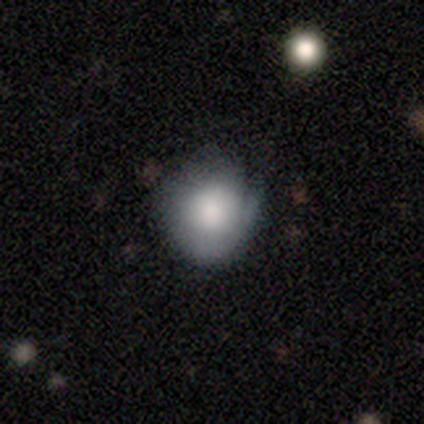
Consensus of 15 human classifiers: A smooth galaxy with no disk features (67%) that is round (80%).

Vote fractions:
- Smooth or featured? smooth: 67% / featured or disk: 27% / star or artifact: 7%
- How rounded? round: 80% / in between: 20% / cigar-shaped: 0%
- Merging? none: 57% / minor disturbance: 43% / major disturbance: 0% / merger: 0%